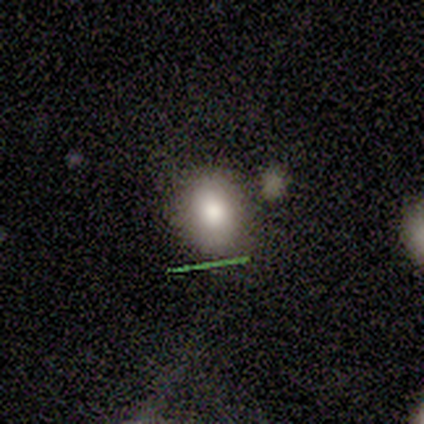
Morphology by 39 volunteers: Smooth or featured: smooth — 87% (featured or disk — 10%)
How rounded: round — 56% (in between — 44%)
Merging: none — 76% (minor disturbance — 21%)